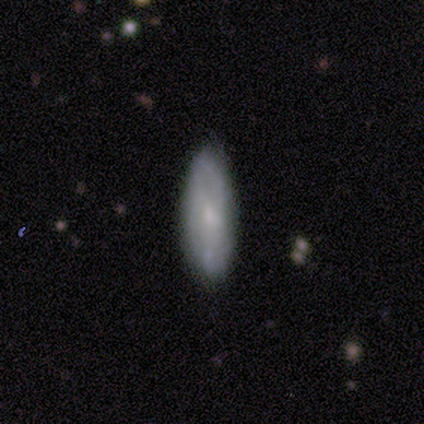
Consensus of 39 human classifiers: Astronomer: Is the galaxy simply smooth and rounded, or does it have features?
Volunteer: smooth — 51% (runner-up: featured or disk, 49%).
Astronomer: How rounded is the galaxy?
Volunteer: in between — 50% (runner-up: cigar-shaped, 45%).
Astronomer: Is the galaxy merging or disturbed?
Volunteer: none — 77%.